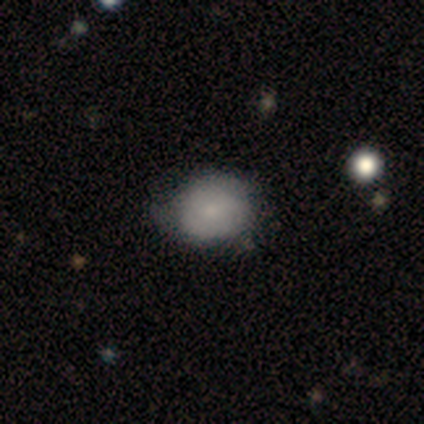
Smooth or featured?
  - smooth: 60% *
  - featured or disk: 40%
  - star or artifact: 0%
How rounded?
  - round: 100% *
  - in between: 0%
  - cigar-shaped: 0%
Merging?
  - none: 80% *
  - minor disturbance: 20%
  - major disturbance: 0%
  - merger: 0%